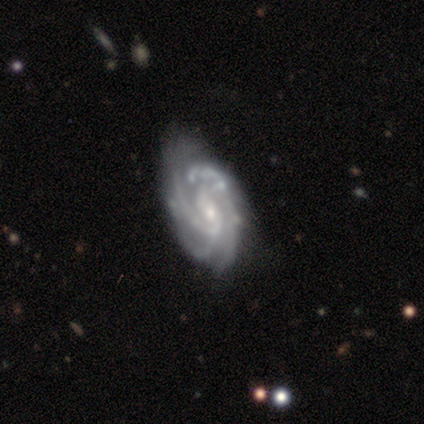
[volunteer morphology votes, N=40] smooth-or-featured: featured or disk: 90% | smooth: 5% | star or artifact: 5%
  disk-edge-on: no: 94% | yes: 6%
    bar: no: 50% | weak: 41% | strong: 9%
    has-spiral-arms: yes: 100% | no: 0%
      spiral-winding: tight: 50% | medium: 44% | loose: 6%
      spiral-arm-count: 3: 38% | can't tell: 29% | 2: 15% | 4: 15% | more than 4: 3% | 1: 0%
    bulge-size: small: 79% | moderate: 21% | dominant: 0% | large: 0% | none: 0%
  merging: none: 66% | minor disturbance: 34% | major disturbance: 0% | merger: 0%